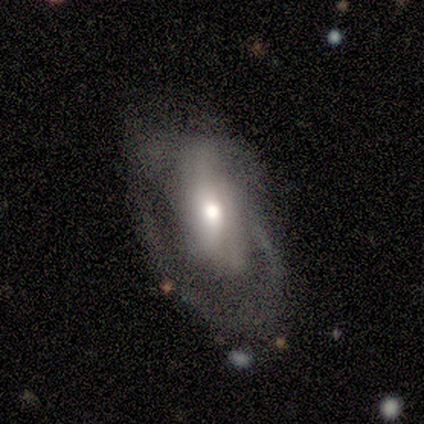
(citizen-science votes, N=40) smooth_or_featured: featured or disk (p=0.53) [alt: smooth p=0.45]
disk_edge_on: no (p=1.00)
bar: weak (p=0.43) [tied with: no p=0.43]
has_spiral_arms: no (p=0.52) [alt: yes p=0.48]
bulge_size: moderate (p=0.71) [alt: large p=0.19]
merging: none (p=0.49) [alt: major disturbance p=0.28]